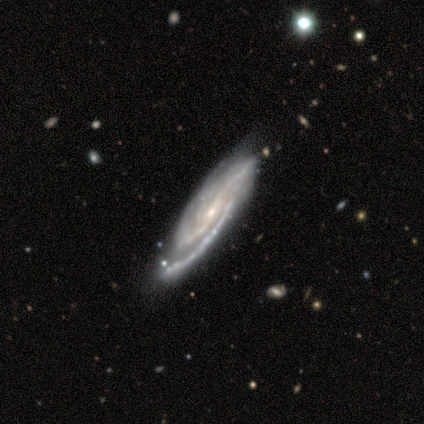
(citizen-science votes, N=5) Smooth or featured? 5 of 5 (100%) said featured or disk. Edge-on disk? 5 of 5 (100%) said no. Bar? 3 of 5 (60%) said weak. Spiral arms? 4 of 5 (80%) said yes. Spiral winding? 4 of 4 (100%) said tight. Spiral arm count? 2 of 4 (50%, tied with can't tell) said 2. Bulge size? 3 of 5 (60%) said small. Merging? 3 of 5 (60%) said none.